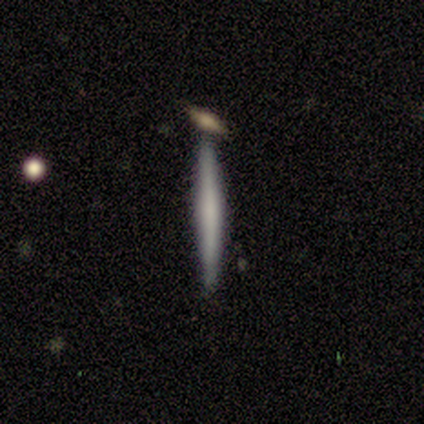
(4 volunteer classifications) A featured or disk galaxy (50%) viewed edge-on (100%) with no central bulge (50%, tied with rounded). Merging: none (100%).